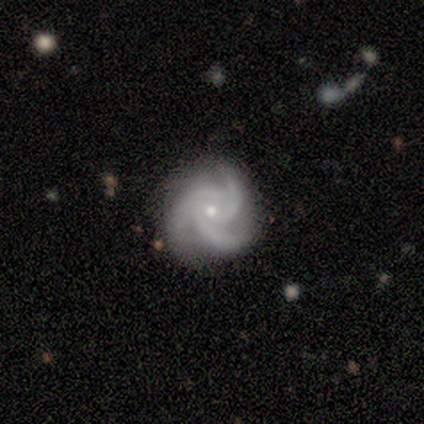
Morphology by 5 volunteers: featured or disk 100%, smooth 0%, star or artifact 0%. Down the decision tree: edge-on disk — no (100%); bar — no (100%); spiral arms — yes (100%); spiral arm count — 3 (100%); spiral winding — medium (60%); bulge size — moderate (60%); merging — none (80%).